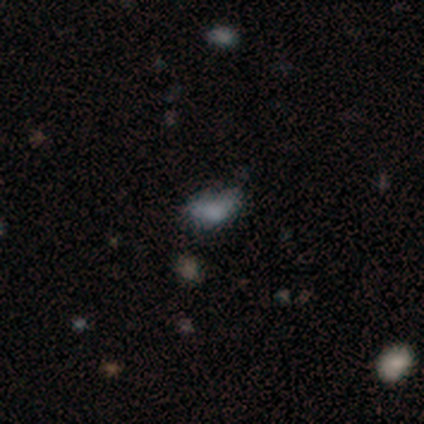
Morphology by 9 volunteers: type=smooth (67%); roundness=in between (100%); merging=none (50%).